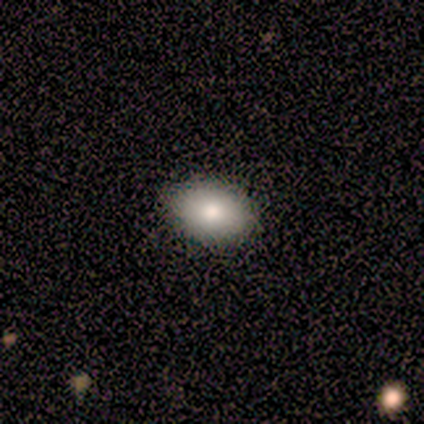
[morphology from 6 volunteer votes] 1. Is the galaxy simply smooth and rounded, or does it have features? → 100% smooth, 0% featured or disk, 0% star or artifact.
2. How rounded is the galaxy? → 67% in between, 33% round, 0% cigar-shaped.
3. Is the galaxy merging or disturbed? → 83% none, 17% minor disturbance, 0% major disturbance, 0% merger.